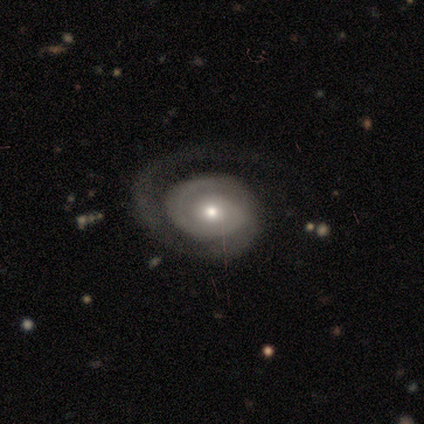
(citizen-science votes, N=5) This appears to be a featured or disk galaxy (100%) with no bar (80%), 2 (50%) tight (75%) spiral arms (80%) and a moderate central bulge (80%). Merging: none (60%).